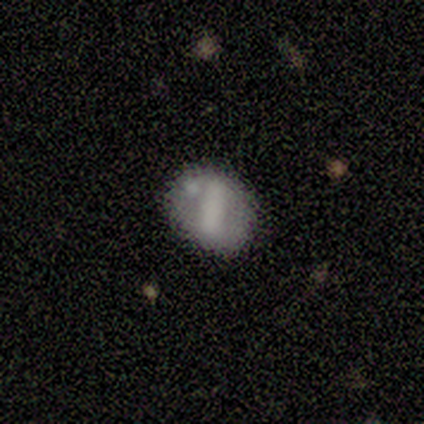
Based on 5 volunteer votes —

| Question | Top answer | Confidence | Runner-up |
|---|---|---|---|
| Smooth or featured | featured or disk | 80% | star or artifact (20%) |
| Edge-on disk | no | 100% | — |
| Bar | strong | 50% | tied: no (50%) |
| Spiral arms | no | 75% | yes (25%) |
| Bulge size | none | 50% | moderate (25%) |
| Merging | none | 50% | tied: minor disturbance (50%) |